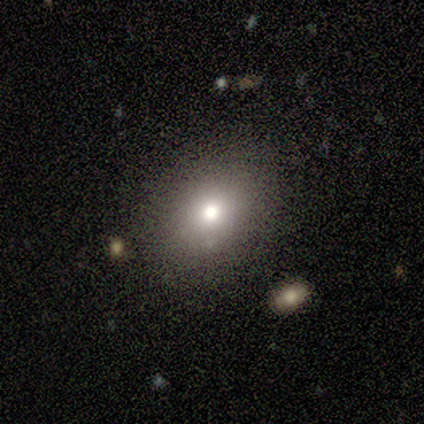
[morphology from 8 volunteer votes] A smooth galaxy with no disk features (88%) that is round (71%). Merging: none (75%).